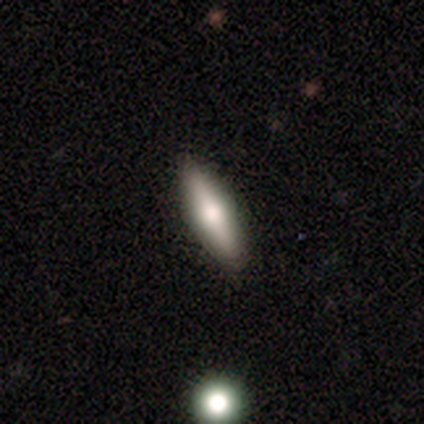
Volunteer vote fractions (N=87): Smooth or featured?
  - smooth: 48% *
  - featured or disk: 45%
  - star or artifact: 7%
How rounded?
  - cigar-shaped: 71% *
  - in between: 29%
  - round: 0%
Merging?
  - none: 86% *
  - minor disturbance: 14%
  - major disturbance: 0%
  - merger: 0%